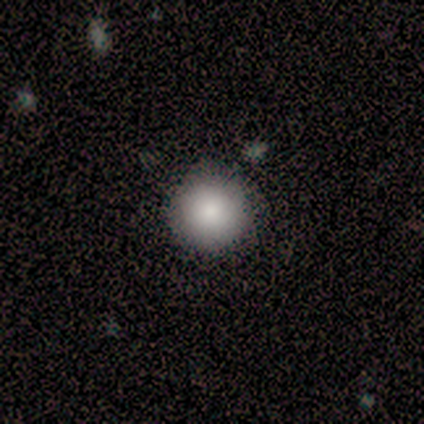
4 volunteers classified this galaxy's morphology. A smooth galaxy with no disk features (100%) that is round (100%).

Vote fractions:
- Smooth or featured? smooth: 100% / featured or disk: 0% / star or artifact: 0%
- How rounded? round: 100% / in between: 0% / cigar-shaped: 0%
- Merging? none: 100% / minor disturbance: 0% / major disturbance: 0% / merger: 0%